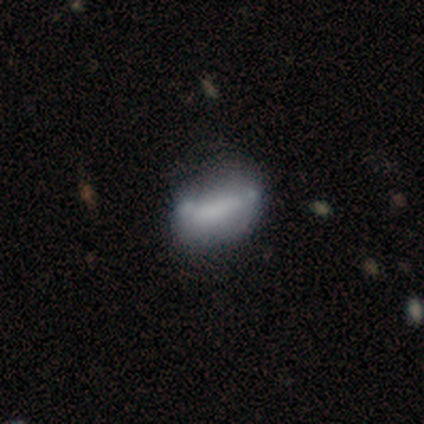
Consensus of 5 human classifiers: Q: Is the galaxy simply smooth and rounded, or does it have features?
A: featured or disk — 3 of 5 (60%).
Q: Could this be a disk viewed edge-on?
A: no — 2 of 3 (67%).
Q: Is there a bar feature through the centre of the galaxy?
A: strong — 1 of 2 (50%, tied with no).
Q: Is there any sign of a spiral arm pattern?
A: no — 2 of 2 (100%).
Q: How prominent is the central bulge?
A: large — 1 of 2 (50%, tied with small).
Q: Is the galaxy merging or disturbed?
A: minor disturbance — 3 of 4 (75%).